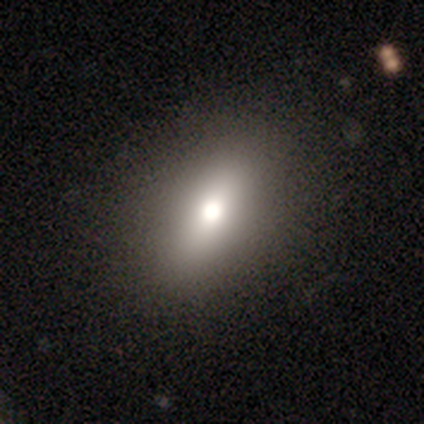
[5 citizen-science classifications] Overall: smooth (100%). How rounded: in between (100%). Merging: none (80%).